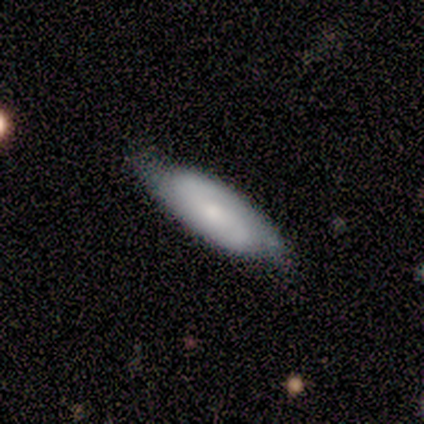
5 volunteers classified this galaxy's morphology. Smooth or featured?
  - featured or disk: 100% *
  - smooth: 0%
  - star or artifact: 0%
Edge-on disk?
  - no: 80% *
  - yes: 20%
Bar?
  - weak: 50% * (tied)
  - no: 50% * (tied)
  - strong: 0%
Spiral arms?
  - yes: 100% *
  - no: 0%
Spiral winding?
  - tight: 50% * (tied)
  - medium: 50% * (tied)
  - loose: 0%
Spiral arm count?
  - 2: 100% *
  - 1: 0%
  - 3: 0%
  - 4: 0%
  - more than 4: 0%
  - can't tell: 0%
Bulge size?
  - small: 100% *
  - dominant: 0%
  - large: 0%
  - moderate: 0%
  - none: 0%
Merging?
  - none: 80% *
  - minor disturbance: 20%
  - major disturbance: 0%
  - merger: 0%